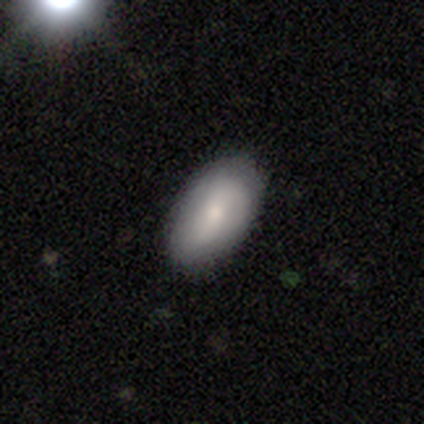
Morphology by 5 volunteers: Overall: smooth (80%). How rounded: in between (100%). Merging: none (80%).